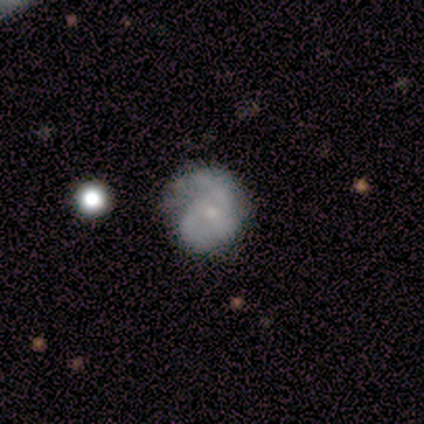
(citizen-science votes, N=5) A featured or disk galaxy (60%) with no bar (67%), 3 (50%, tied with 4) medium (100%) spiral arms (67%) and a small central bulge (67%). Merging: none (80%).